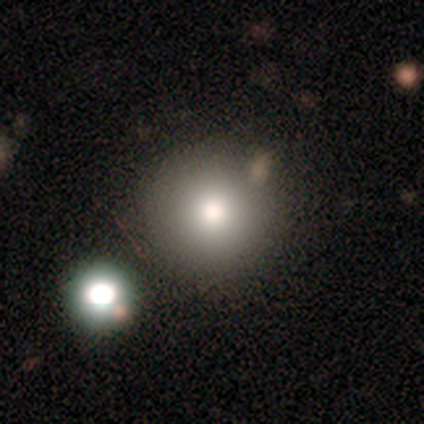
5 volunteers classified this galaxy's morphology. This appears to be a smooth galaxy with no disk features (60%) that is round (100%). Merging: none (100%).